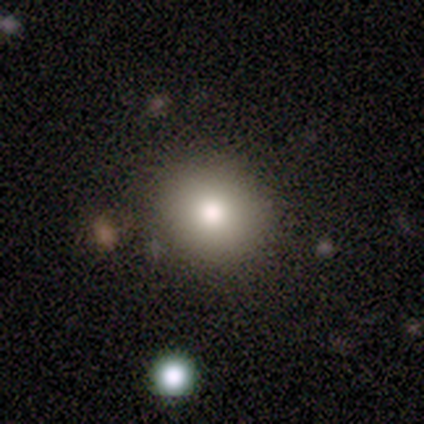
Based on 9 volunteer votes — Volunteers were most divided on "smooth or featured": smooth: 67%, star or artifact: 33%, featured or disk: 0%. More confident: merging — none (100%); how rounded — round (67%).